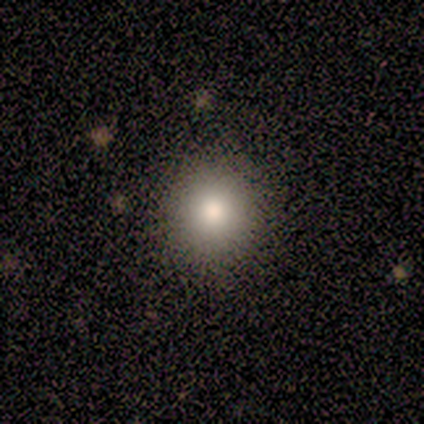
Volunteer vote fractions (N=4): Overall: smooth (100%). How rounded: round (100%). Merging: none (100%).